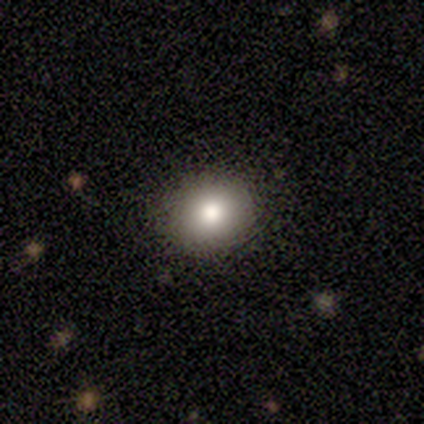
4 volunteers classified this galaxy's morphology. Overall: smooth (75%). How rounded: round (100%). Merging: none (100%).